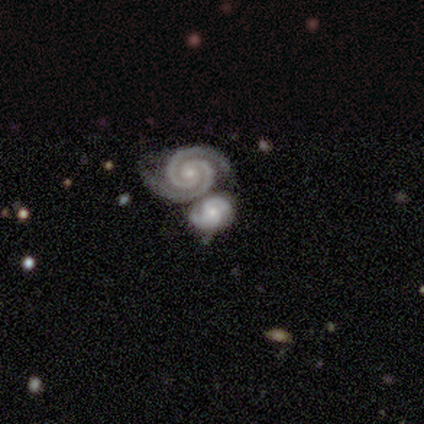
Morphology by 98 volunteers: Smooth or featured: featured or disk — 93% (smooth — 5%)
Edge-on disk: no — 99% (yes — 1%)
Bar: no — 78% (weak — 12%)
Spiral arms: yes — 98% (no — 2%)
Spiral winding: tight — 74% (medium — 20%)
Spiral arm count: 2 — 93% (3 — 2%)
Bulge size: small — 67% (moderate — 29%)
Merging: merger — 54% (none — 38%)